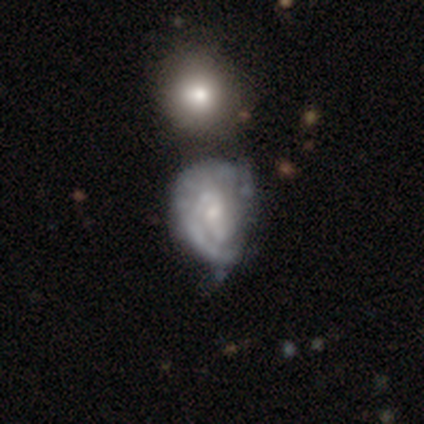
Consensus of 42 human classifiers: Overall: featured or disk (64%). Edge-on disk: no (100%). Bar: no (59%; weak 41%). Spiral arms: yes (74%). Spiral arm count: 1 (45%; 2 30%). Spiral winding: tight (50%; loose 30%). Bulge size: small (52%; moderate 41%). Merging: minor disturbance (32%; major disturbance 30%).